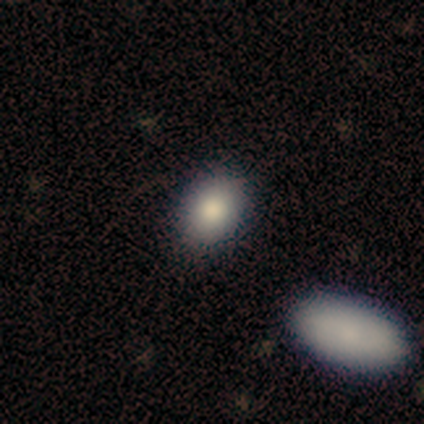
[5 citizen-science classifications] Smooth or featured? smooth (80%)
How rounded? round (50%, tied with in between)
Merging? none (60%)